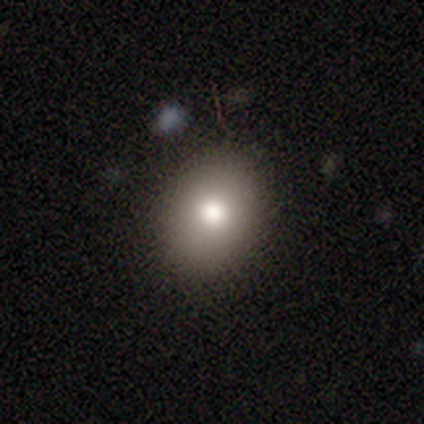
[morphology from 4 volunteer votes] Smooth or featured? smooth (100%)
How rounded? round (50%, tied with in between)
Merging? none (100%)